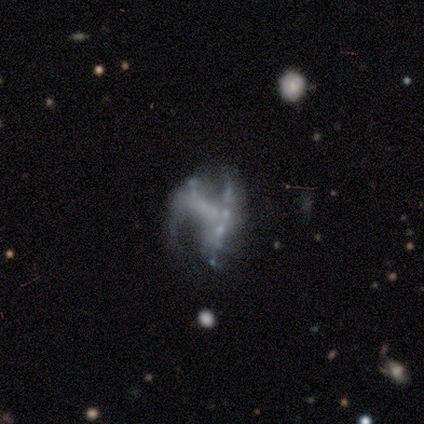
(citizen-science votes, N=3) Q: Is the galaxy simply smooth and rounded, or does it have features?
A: featured or disk — 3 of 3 (100%).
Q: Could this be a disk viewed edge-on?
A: no — 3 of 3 (100%).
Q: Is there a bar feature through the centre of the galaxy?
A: weak — 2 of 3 (67%).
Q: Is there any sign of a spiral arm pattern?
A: no — 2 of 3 (67%).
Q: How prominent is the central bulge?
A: none — 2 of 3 (67%).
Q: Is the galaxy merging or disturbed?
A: none — 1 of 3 (33%, tied with minor disturbance and major disturbance).